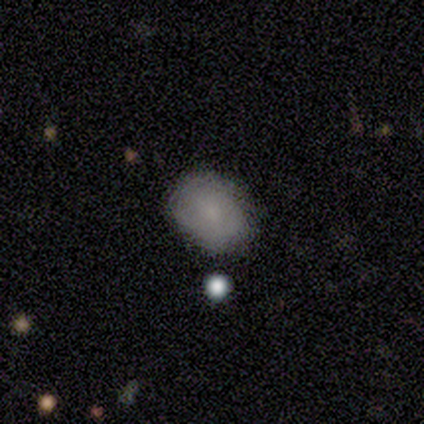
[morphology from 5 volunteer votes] This is clearly a smooth galaxy (80%). How rounded: possibly round (50%, tied with in between). Merging: likely none (75%).